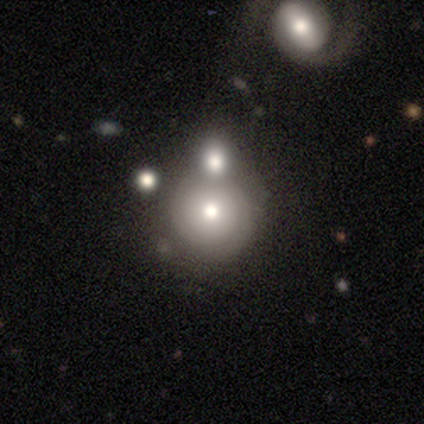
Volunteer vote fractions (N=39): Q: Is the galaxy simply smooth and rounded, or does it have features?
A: smooth — 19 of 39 (49%).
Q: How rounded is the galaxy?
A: round — 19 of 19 (100%).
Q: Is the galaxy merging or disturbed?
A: none — 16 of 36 (44%).